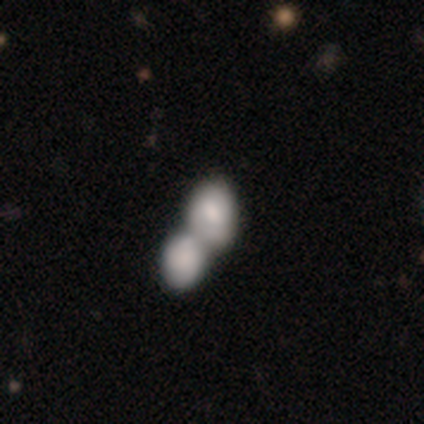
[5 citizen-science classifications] Volunteers were most divided on "smooth or featured": smooth: 60%, featured or disk: 40%, star or artifact: 0%. More confident: merging — merger (80%); how rounded — in between (67%).